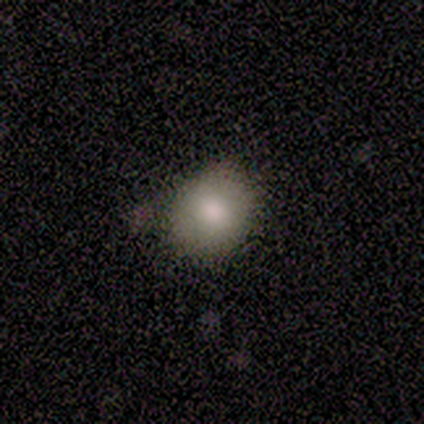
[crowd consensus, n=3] This appears to be a smooth galaxy with no disk features (100%) that is round (100%). Merging: none (100%).